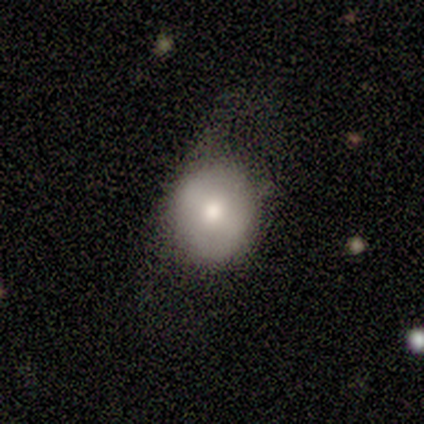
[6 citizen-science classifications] Smooth or featured? 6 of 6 (100%) said smooth. How rounded? 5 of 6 (83%) said round. Merging? 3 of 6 (50%, tied with minor disturbance) said none.